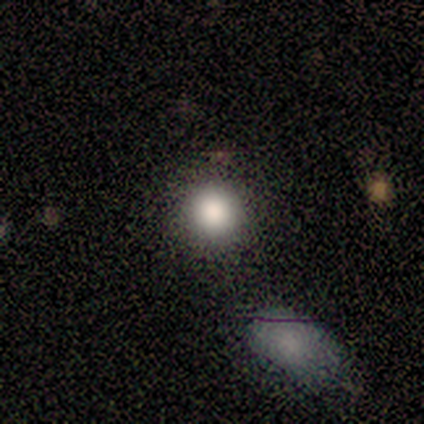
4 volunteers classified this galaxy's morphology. This appears to be a smooth galaxy with no disk features (100%) that is round (100%). Merging: none (100%).